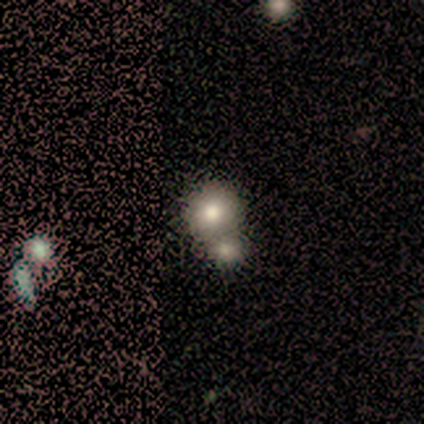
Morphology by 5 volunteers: type=smooth (80%); roundness=round (100%); merging=none (60%).